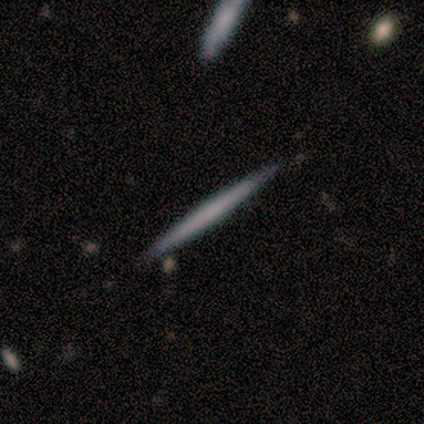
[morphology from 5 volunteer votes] A smooth galaxy with no disk features (80%) that is cigar-shaped (75%). Merging: none (80%).